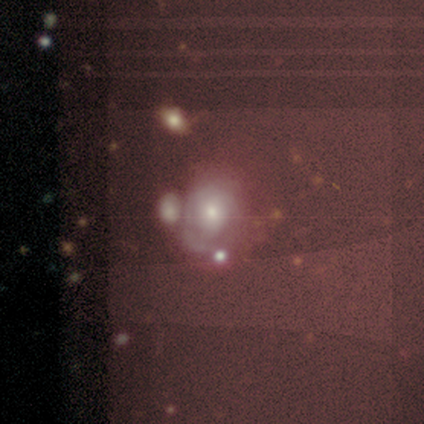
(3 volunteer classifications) smooth_or_featured: smooth (p=0.67) [alt: star or artifact p=0.33]
how_rounded: round (p=0.50) [tied with: in between p=0.50]
merging: minor disturbance (p=0.50) [tied with: major disturbance p=0.50]